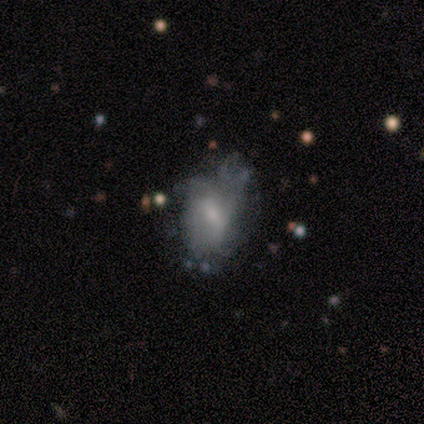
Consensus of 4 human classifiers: Volunteers were most divided on "spiral arms" (2-way tie): yes: 50%, no: 50%; "spiral arm count" (2-way tie): 1: 50%, can't tell: 50%, 2: 0%, 3: 0%, 4: 0%, more than 4: 0%; "bulge size" (2-way tie): moderate: 50%, small: 50%, dominant: 0%, large: 0%, none: 0%. More confident: smooth or featured — featured or disk (100%); edge-on disk — no (100%); spiral winding — tight (100%); bar — weak (75%); merging — major disturbance (50%).